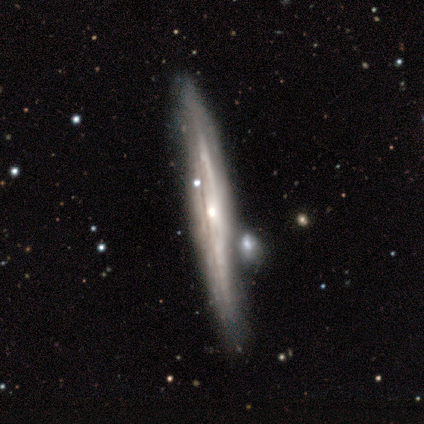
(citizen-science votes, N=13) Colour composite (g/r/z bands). It shows a featured or disk galaxy (77%) viewed edge-on (80%) with a rounded central bulge (50%). Merging: none (62%).